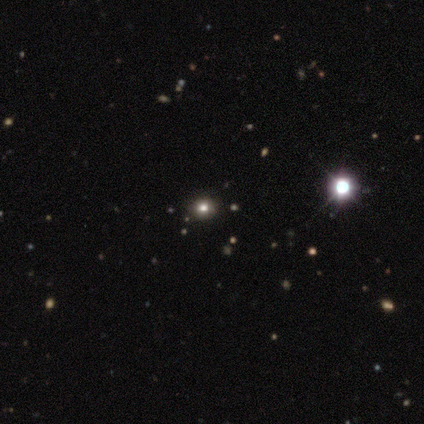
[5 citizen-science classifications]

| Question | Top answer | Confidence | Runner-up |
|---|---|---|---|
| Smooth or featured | smooth | 80% | star or artifact (20%) |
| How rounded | round | 100% | — |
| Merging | none | 100% | — |